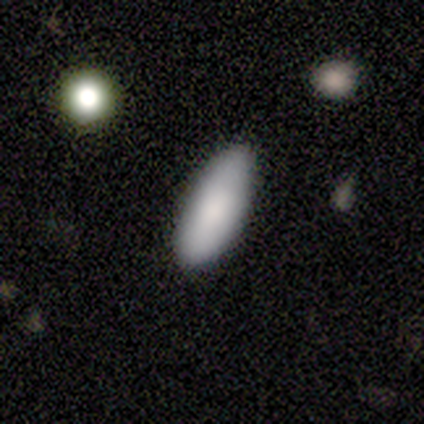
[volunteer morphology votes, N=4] smooth_or_featured: smooth (p=1.00)
how_rounded: in between (p=0.50) [alt: round p=0.25]
merging: none (p=0.50) [tied with: minor disturbance p=0.50]